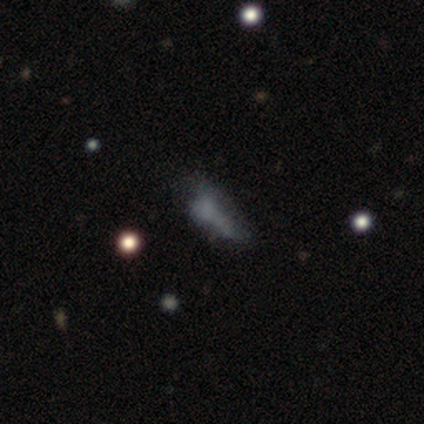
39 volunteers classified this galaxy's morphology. This appears to be a smooth galaxy with no disk features (56%) that is in between round and cigar-shaped (55%). Merging: minor disturbance (38%).